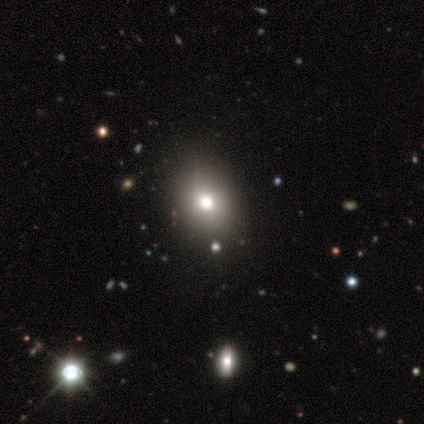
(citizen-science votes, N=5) smooth_or_featured: smooth (p=0.60) [alt: featured or disk p=0.20]
how_rounded: in between (p=0.67) [alt: round p=0.33]
merging: none (p=0.75) [alt: major disturbance p=0.25]